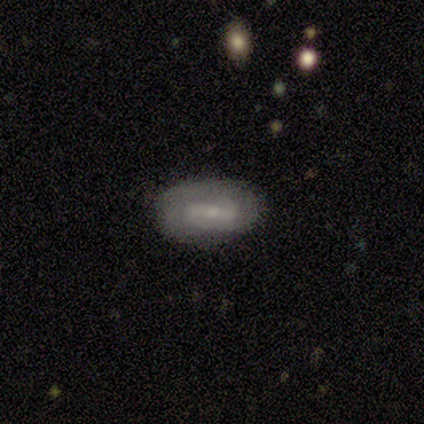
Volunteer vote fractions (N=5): Smooth or featured? featured or disk (80%)
Edge-on disk? no (100%)
Bar? strong (50%, tied with weak)
Spiral arms? yes (50%, tied with no)
Spiral winding? medium (50%, tied with loose)
Spiral arm count? 2 (100%)
Bulge size? small (75%)
Merging? none (100%)